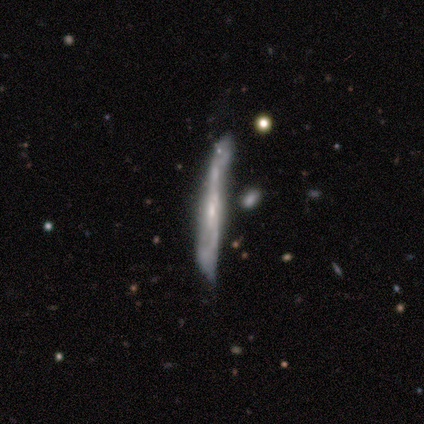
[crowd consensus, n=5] Smooth or featured: featured or disk — 100%
Edge-on disk: yes — 100%
Edge-on bulge: none — 60% (boxy — 20%)
Merging: minor disturbance — 60% (none — 20%)